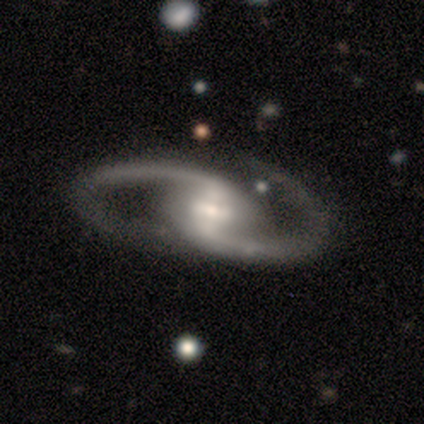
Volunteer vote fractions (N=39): Smooth or featured: featured or disk — 90% (smooth — 5%)
Edge-on disk: no — 94% (yes — 6%)
Bar: strong — 64% (weak — 30%)
Spiral arms: yes — 97% (no — 3%)
Spiral winding: medium — 62% (loose — 28%)
Spiral arm count: 2 — 100%
Bulge size: moderate — 42% (small — 39%)
Merging: none — 73% (major disturbance — 16%)